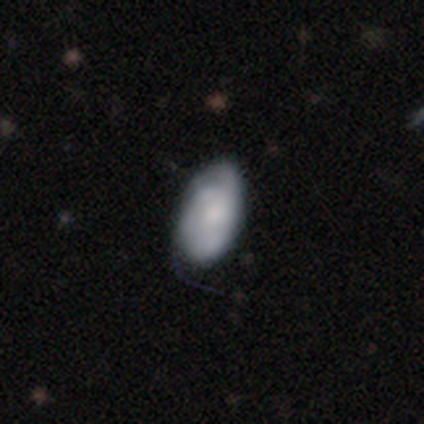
This appears to be a smooth galaxy with no disk features (67%) that is in between round and cigar-shaped (100%). Merging: none (50%).